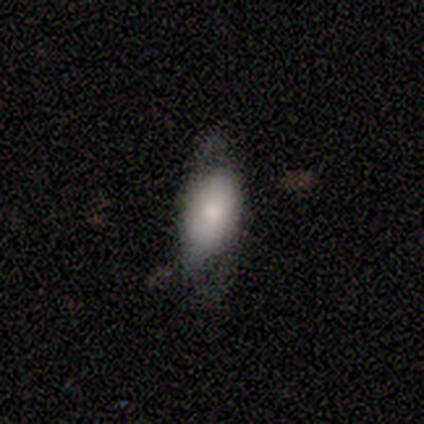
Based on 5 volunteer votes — Smooth or featured? featured or disk (60%)
Edge-on disk? no (67%)
Bar? strong (50%, tied with weak)
Spiral arms? yes (50%, tied with no)
Spiral winding? loose (100%)
Spiral arm count? 2 (100%)
Bulge size? moderate (50%, tied with none)
Merging? none (60%)